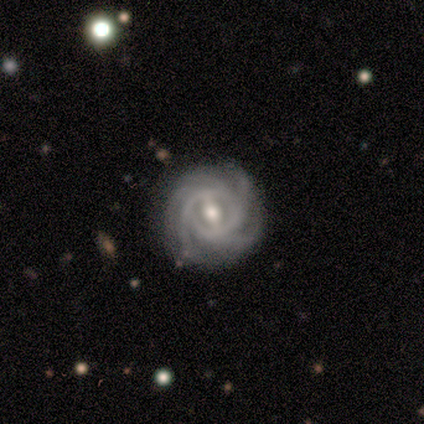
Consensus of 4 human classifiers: Smooth or featured? featured or disk (100%)
Edge-on disk? no (100%)
Bar? strong (75%)
Spiral arms? yes (100%)
Spiral winding? tight (75%)
Spiral arm count? 4 (50%)
Bulge size? moderate (75%)
Merging? none (100%)